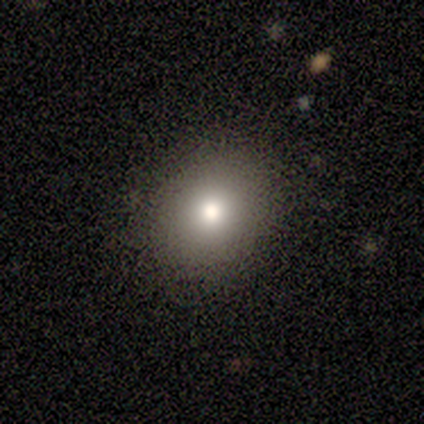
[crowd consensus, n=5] smooth 80%, star or artifact 20%, featured or disk 0%. Down the decision tree: how rounded — round (50%, tied with in between); merging — none (100%).